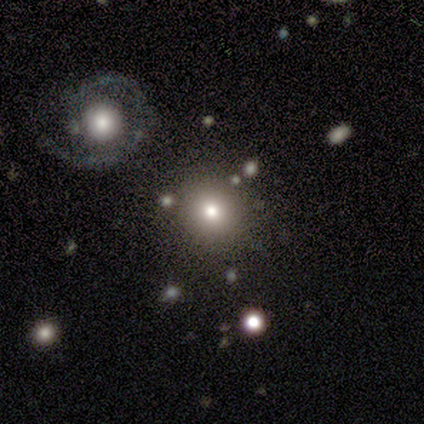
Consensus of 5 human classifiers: smooth-or-featured: smooth: 80% | star or artifact: 20% | featured or disk: 0%
  how-rounded: round: 75% | in between: 25% | cigar-shaped: 0%
  merging: none: 75% | minor disturbance: 25% | major disturbance: 0% | merger: 0%